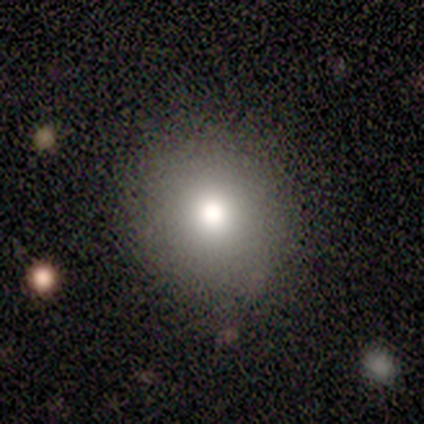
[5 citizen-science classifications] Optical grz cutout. It shows a featured or disk galaxy (60%) with no bar (100%), no spiral arms (100%) and a moderate central bulge (67%). Merging: none (100%).